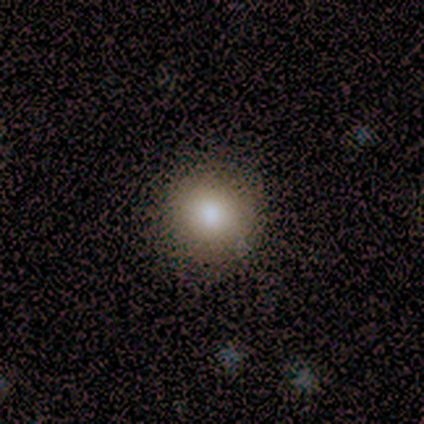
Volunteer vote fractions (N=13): A smooth galaxy with no disk features (92%) that is round (100%). Merging: none (92%).